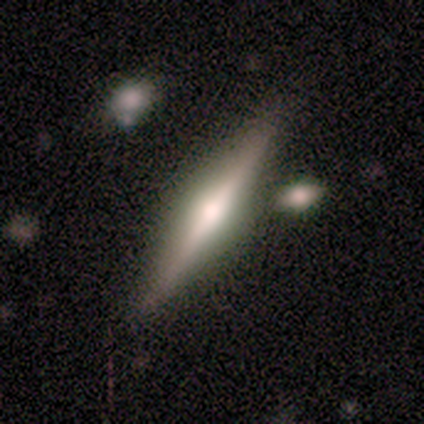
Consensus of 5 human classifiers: Morphology: type=featured or disk (80%); edge-on=yes (100%); edge-on bulge=rounded (100%); merging=none (75%).